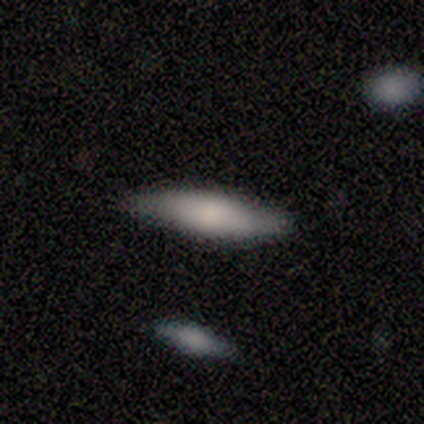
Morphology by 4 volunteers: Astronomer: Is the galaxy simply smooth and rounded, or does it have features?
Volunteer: smooth — 75%.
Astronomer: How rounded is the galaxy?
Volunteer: in between — 67%.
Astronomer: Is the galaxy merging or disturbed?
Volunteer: none — 100%.